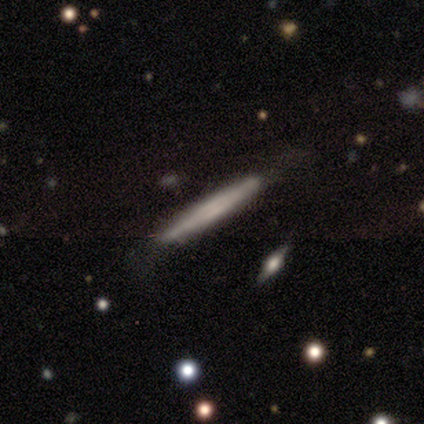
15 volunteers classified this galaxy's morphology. type=smooth (60%); roundness=cigar-shaped (100%); merging=none (85%).